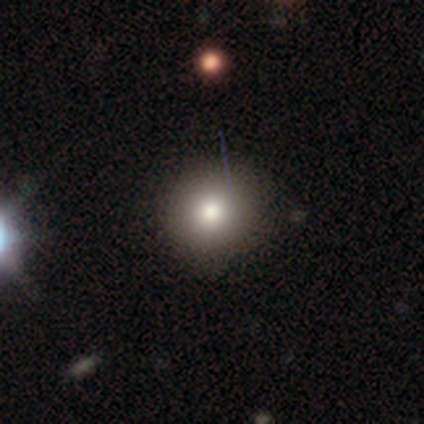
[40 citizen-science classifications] Q: Smooth or featured?
A: smooth (75%); runner-up: featured or disk (15%)
Q: How rounded?
A: round (97%); runner-up: in between (3%)
Q: Merging?
A: none (78%); runner-up: minor disturbance (14%)